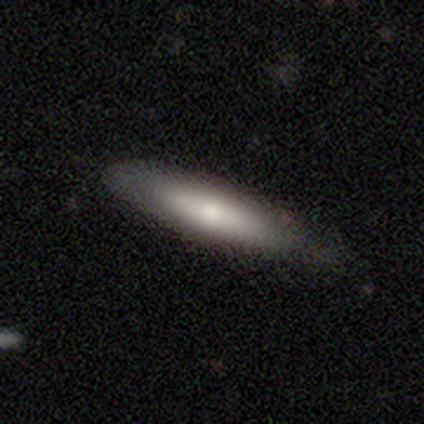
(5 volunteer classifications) Morphology: type=smooth (60%); roundness=cigar-shaped (100%); merging=none (60%).